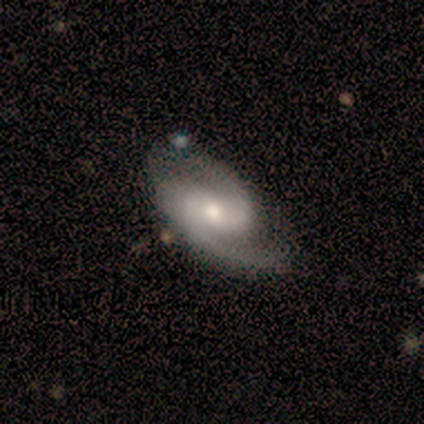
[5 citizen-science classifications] Smooth or featured? featured or disk (100%)
Edge-on disk? no (100%)
Bar? weak (60%)
Spiral arms? yes (100%)
Spiral winding? medium (80%)
Spiral arm count? 2 (100%)
Bulge size? moderate (60%)
Merging? none (80%)